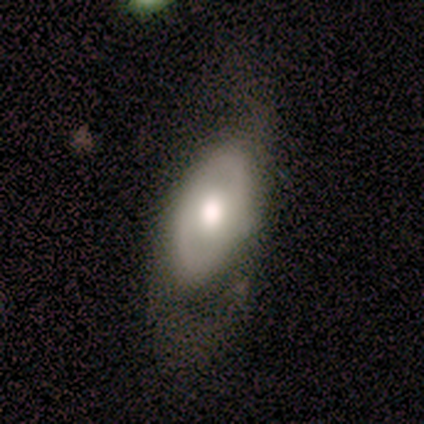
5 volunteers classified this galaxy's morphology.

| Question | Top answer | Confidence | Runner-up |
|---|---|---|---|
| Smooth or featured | featured or disk | 60% | smooth (40%) |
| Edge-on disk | no | 67% | yes (33%) |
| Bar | weak | 50% | tied: no (50%) |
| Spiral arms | yes | 100% | — |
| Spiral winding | tight | 50% | tied: medium (50%) |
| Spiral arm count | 2 | 100% | — |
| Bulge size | moderate | 100% | — |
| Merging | major disturbance | 60% | none (40%) |